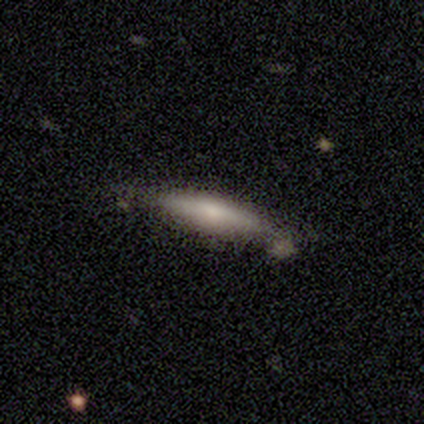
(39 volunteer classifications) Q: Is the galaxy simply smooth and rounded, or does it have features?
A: smooth — 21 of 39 (54%).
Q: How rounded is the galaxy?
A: cigar-shaped — 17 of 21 (81%).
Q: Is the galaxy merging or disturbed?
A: none — 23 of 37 (62%).